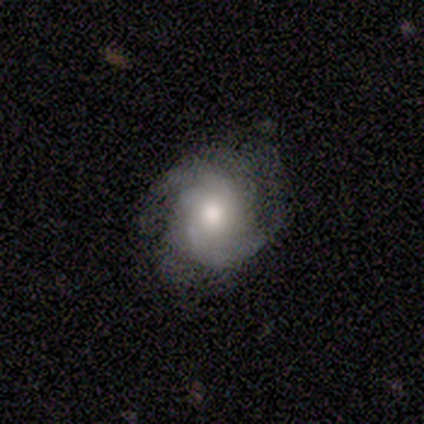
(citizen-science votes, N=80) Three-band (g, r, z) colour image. It shows a featured or disk galaxy (81%) with no bar (86%), 2 (46%) medium (56%) spiral arms (94%) and a moderate central bulge (63%). Merging: none (65%).